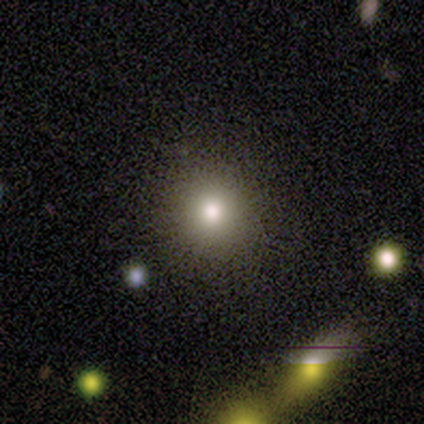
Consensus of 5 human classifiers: smooth-or-featured: smooth: 80% | star or artifact: 20% | featured or disk: 0%
  how-rounded: round: 100% | in between: 0% | cigar-shaped: 0%
  merging: none: 100% | minor disturbance: 0% | major disturbance: 0% | merger: 0%